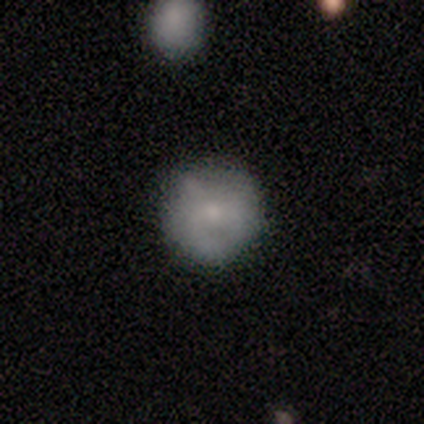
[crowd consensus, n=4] Q: Smooth or featured?
A: smooth (50%); runner-up: featured or disk (25%)
Q: How rounded?
A: round (100%)
Q: Merging?
A: none (67%); runner-up: minor disturbance (33%)